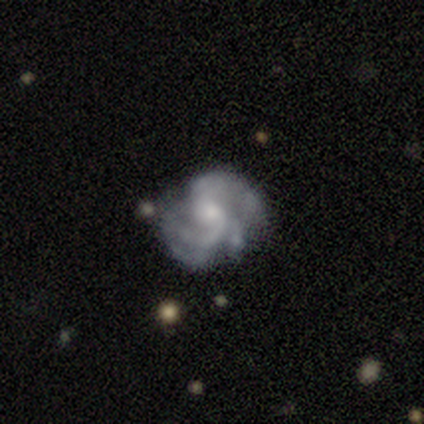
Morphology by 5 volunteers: Smooth or featured? 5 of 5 (100%) said featured or disk. Edge-on disk? 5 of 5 (100%) said no. Bar? 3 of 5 (60%) said weak. Spiral arms? 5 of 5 (100%) said yes. Spiral winding? 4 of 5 (80%) said medium. Spiral arm count? 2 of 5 (40%, tied with 3) said 2. Bulge size? 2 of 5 (40%, tied with small) said moderate. Merging? 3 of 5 (60%) said none.